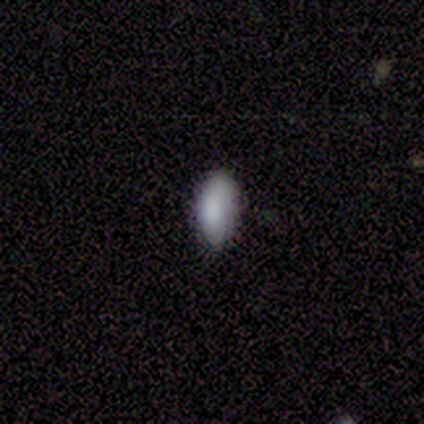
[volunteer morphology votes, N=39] Overall: smooth (90%). How rounded: in between (94%). Merging: none (72%).